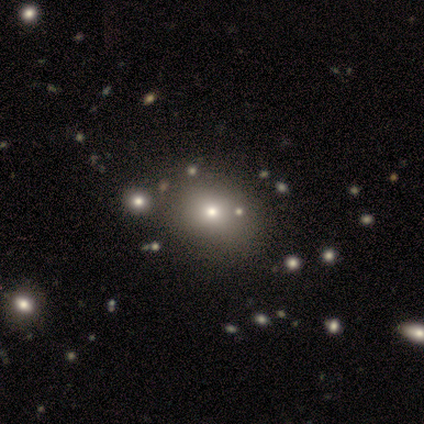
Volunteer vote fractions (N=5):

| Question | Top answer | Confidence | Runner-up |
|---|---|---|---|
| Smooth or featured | featured or disk | 60% | smooth (20%) |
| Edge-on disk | no | 100% | — |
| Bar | no | 100% | — |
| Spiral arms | no | 100% | — |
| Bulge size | large | 33% | tied: moderate (33%), small (33%) |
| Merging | none | 75% | minor disturbance (25%) |